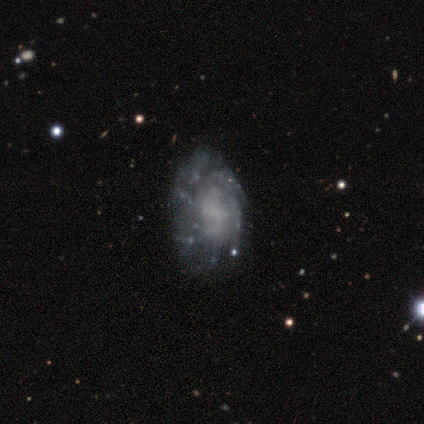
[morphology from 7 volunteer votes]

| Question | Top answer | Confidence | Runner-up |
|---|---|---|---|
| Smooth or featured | featured or disk | 100% | — |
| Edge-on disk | no | 100% | — |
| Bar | no | 71% | weak (29%) |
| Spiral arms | yes | 86% | no (14%) |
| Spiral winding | tight | 33% | tied: medium (33%), loose (33%) |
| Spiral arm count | can't tell | 83% | 2 (17%) |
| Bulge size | none | 86% | large (14%) |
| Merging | none | 57% | minor disturbance (29%) |